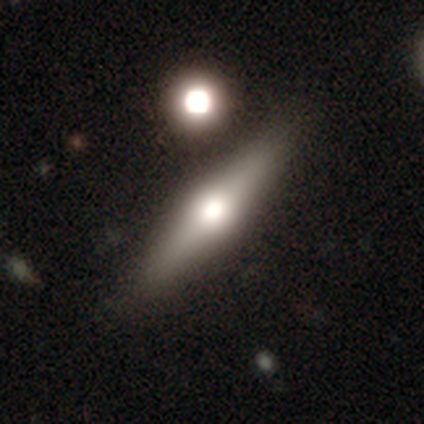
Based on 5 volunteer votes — smooth-or-featured: featured or disk: 80% | smooth: 20% | star or artifact: 0%
  disk-edge-on: yes: 75% | no: 25%
    edge-on-bulge: rounded: 100% | boxy: 0% | none: 0%
  merging: none: 80% | minor disturbance: 20% | major disturbance: 0% | merger: 0%